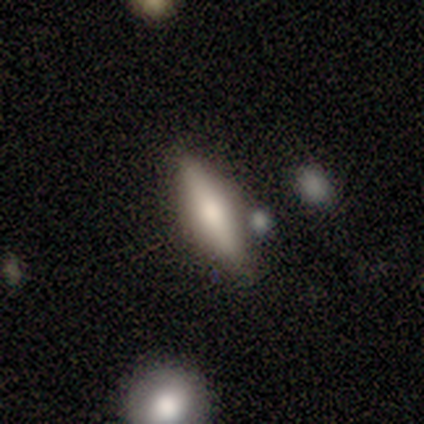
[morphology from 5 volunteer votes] This is marginally a smooth galaxy (40%, tied with featured or disk). How rounded: possibly in between (50%, tied with cigar-shaped). Merging: clearly none (100%).